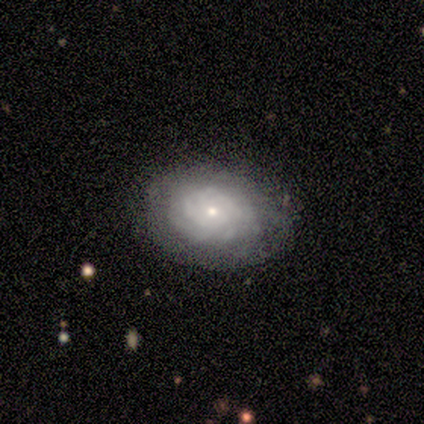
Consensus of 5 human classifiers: Morphology: type=featured or disk (100%); edge-on=no (100%); bar=no (100%); spiral arms=yes (80%); winding=tight (100%); arm count=can't tell (50%); bulge=small (80%); merging=none (100%).